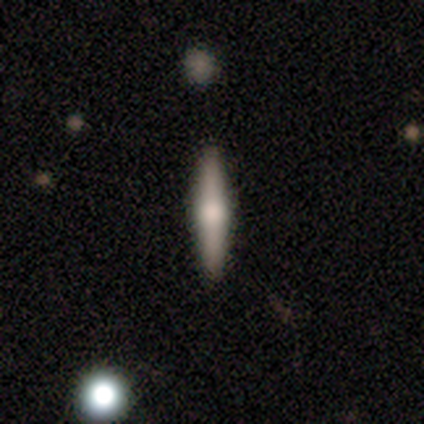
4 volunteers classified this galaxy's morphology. Smooth or featured? 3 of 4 (75%) said smooth. How rounded? 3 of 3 (100%) said cigar-shaped. Merging? 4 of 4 (100%) said none.